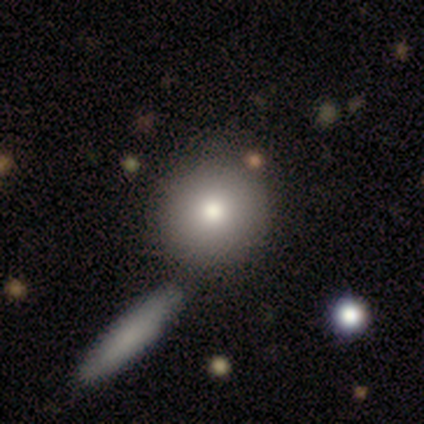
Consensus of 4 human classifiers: A smooth galaxy with no disk features (100%) that is round (100%). Merging: none (100%).